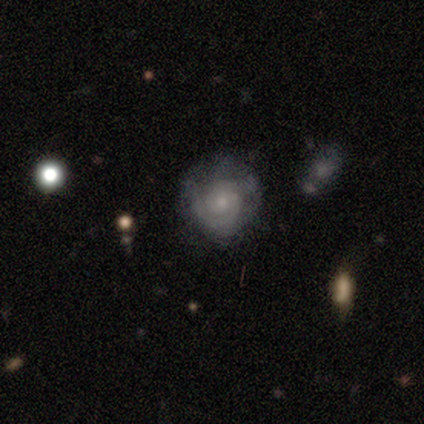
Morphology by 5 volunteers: featured or disk 60%, smooth 20%, star or artifact 20%. Down the decision tree: edge-on disk — no (100%); bar — no (67%); spiral arms — yes (100%); spiral arm count — 2 (33%, tied with 3 and can't tell); spiral winding — medium (67%); bulge size — small (67%); merging — none (100%).